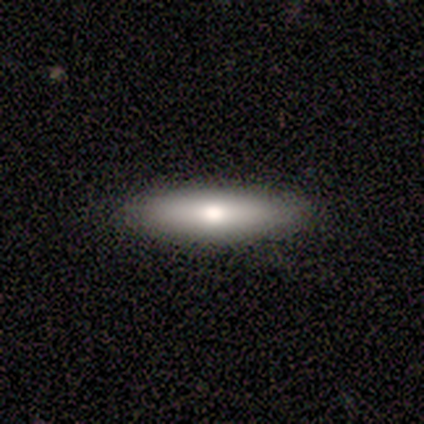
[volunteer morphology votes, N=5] Volunteers were most divided on "how rounded" (2-way tie): in between: 50%, cigar-shaped: 50%, round: 0%. More confident: merging — none (100%); smooth or featured — smooth (80%).